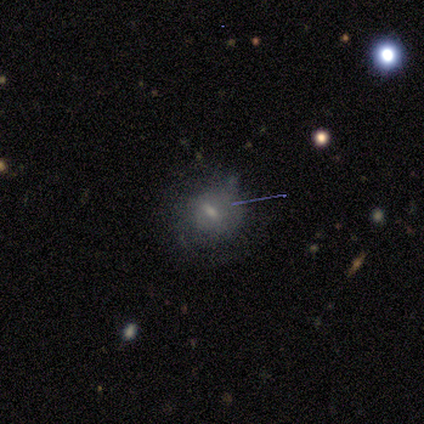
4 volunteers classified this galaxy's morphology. A featured or disk galaxy (75%) with a strong bar (67%), no spiral arms (67%) and a small central bulge (67%).

Vote fractions:
- Smooth or featured? featured or disk: 75% / star or artifact: 25% / smooth: 0%
- Edge-on disk? no: 100% / yes: 0%
- Bar? strong: 67% / no: 33% / weak: 0%
- Spiral arms? no: 67% / yes: 33%
- Bulge size? small: 67% / moderate: 33% / dominant: 0% / large: 0% / none: 0%
- Merging? minor disturbance: 67% / major disturbance: 33% / none: 0% / merger: 0%